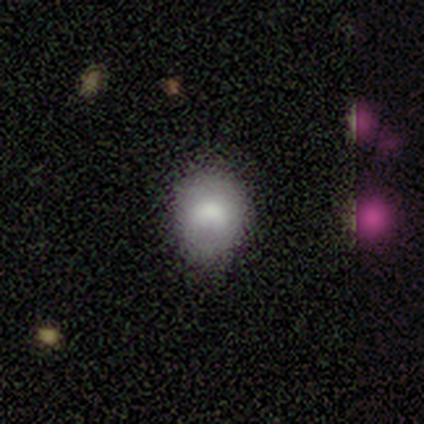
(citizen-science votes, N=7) Morphology: type=smooth (100%); roundness=round (57%); merging=none (57%).